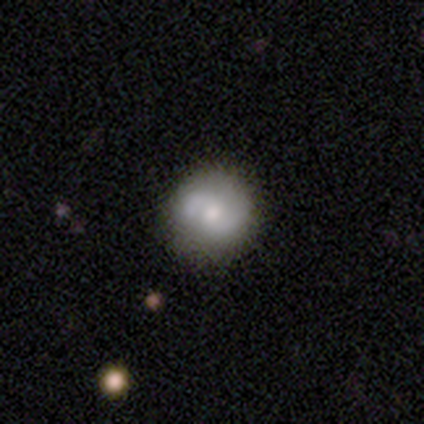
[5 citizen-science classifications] Smooth or featured? 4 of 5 (80%) said featured or disk. Edge-on disk? 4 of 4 (100%) said no. Bar? 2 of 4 (50%, tied with no) said weak. Spiral arms? 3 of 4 (75%) said yes. Spiral winding? 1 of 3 (33%, tied with medium and loose) said tight. Spiral arm count? 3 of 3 (100%) said 2. Bulge size? 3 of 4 (75%) said moderate. Merging? 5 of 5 (100%) said none.